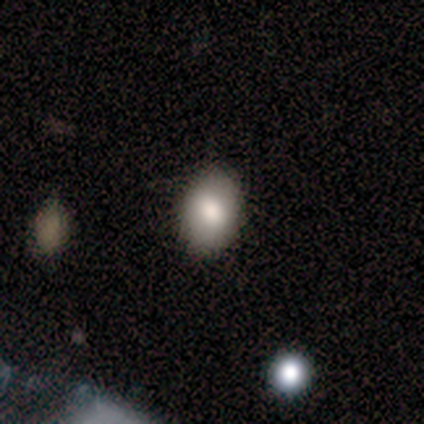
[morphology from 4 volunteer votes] smooth_or_featured: smooth (p=0.75) [alt: featured or disk p=0.25]
how_rounded: in between (p=0.67) [alt: round p=0.33]
merging: none (p=0.75) [alt: minor disturbance p=0.25]